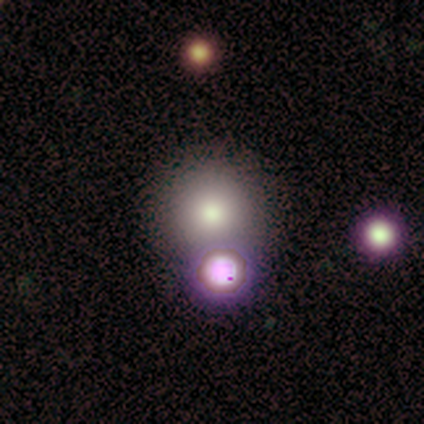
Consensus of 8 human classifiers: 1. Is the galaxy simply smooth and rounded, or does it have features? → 50% smooth, 38% star or artifact, 12% featured or disk.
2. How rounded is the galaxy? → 100% round, 0% in between, 0% cigar-shaped.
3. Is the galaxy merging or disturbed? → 60% none, 20% major disturbance, 20% merger, 0% minor disturbance.